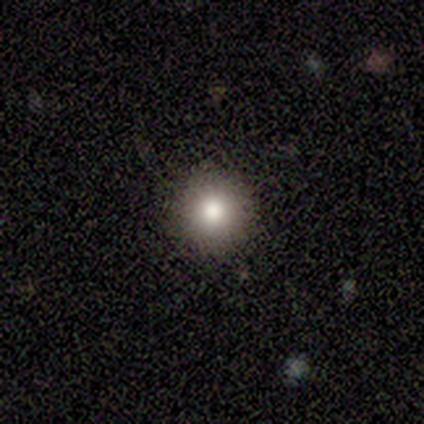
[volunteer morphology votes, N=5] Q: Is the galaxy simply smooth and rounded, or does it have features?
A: smooth — 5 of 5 (100%).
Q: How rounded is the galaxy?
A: round — 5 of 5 (100%).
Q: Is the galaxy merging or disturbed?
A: none — 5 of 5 (100%).